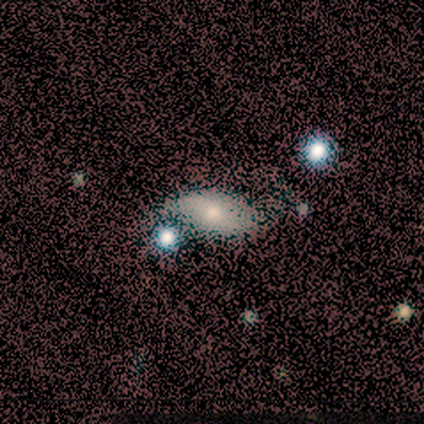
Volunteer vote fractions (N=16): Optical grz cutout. It shows a smooth galaxy with no disk features (81%) that is in between round and cigar-shaped (100%). Merging: none (60%).